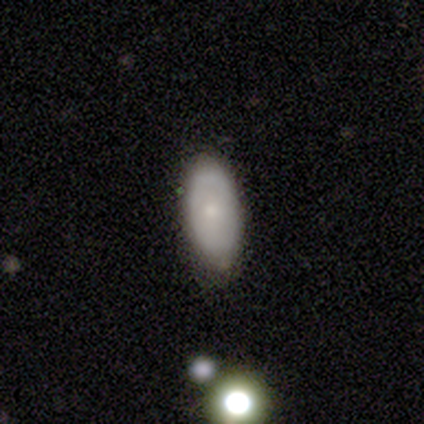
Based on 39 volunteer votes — This is likely a smooth galaxy (64%). How rounded: clearly in between (96%). Merging: likely none (73%).